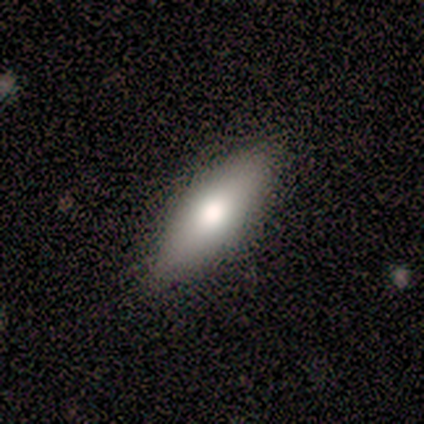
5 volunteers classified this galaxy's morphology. smooth_or_featured: featured or disk (p=0.60) [alt: smooth p=0.40]
disk_edge_on: no (p=0.67) [alt: yes p=0.33]
bar: no (p=1.00)
has_spiral_arms: no (p=1.00)
bulge_size: large (p=0.50) [tied with: moderate p=0.50]
merging: none (p=1.00)